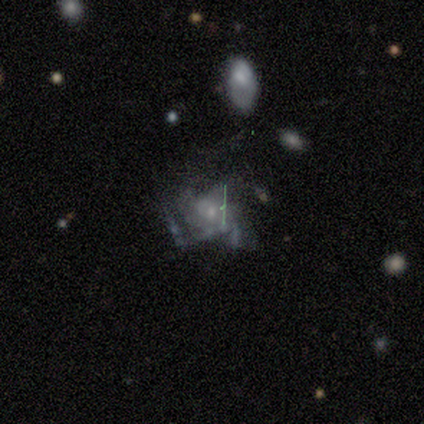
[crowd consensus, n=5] A featured or disk galaxy (60%) with no bar (100%), 1 (100%) loose (100%) spiral arms (50%, tied with no) and a small central bulge (100%). Merging: none (67%).